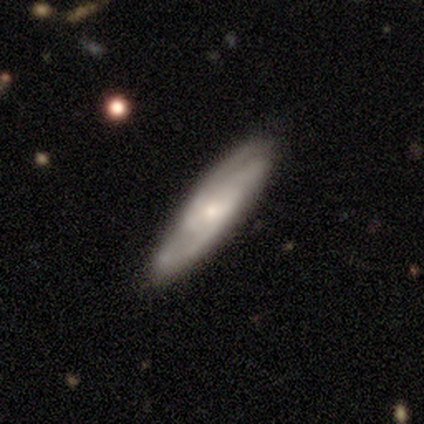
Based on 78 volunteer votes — Smooth or featured? 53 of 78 (68%) said featured or disk. Edge-on disk? 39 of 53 (74%) said no. Bar? 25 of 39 (64%) said no. Spiral arms? 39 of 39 (100%) said yes. Spiral winding? 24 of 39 (62%) said medium. Spiral arm count? 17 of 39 (44%) said 3. Bulge size? 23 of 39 (59%) said small. Merging? 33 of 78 (42%) said none.